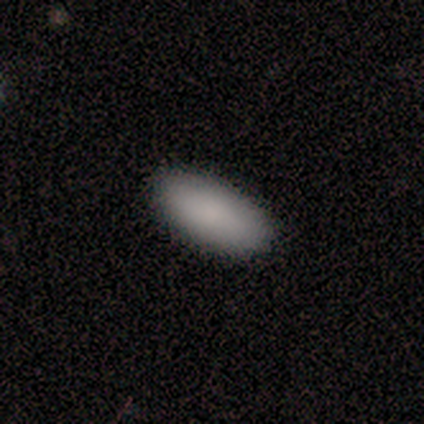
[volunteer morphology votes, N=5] Q: Smooth or featured?
A: smooth (100%)
Q: How rounded?
A: in between (100%)
Q: Merging?
A: none (100%)